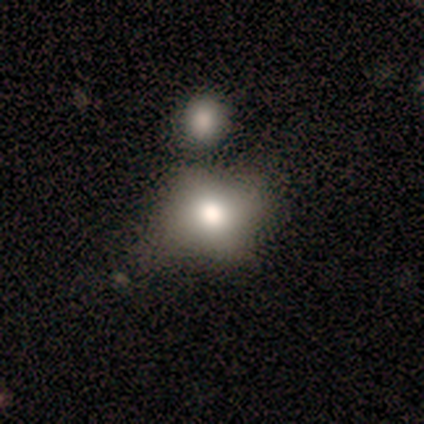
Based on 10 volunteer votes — Smooth or featured: smooth — 70% (featured or disk — 20%)
How rounded: in between — 57% (round — 43%)
Merging: none — 44% (minor disturbance — 22%)